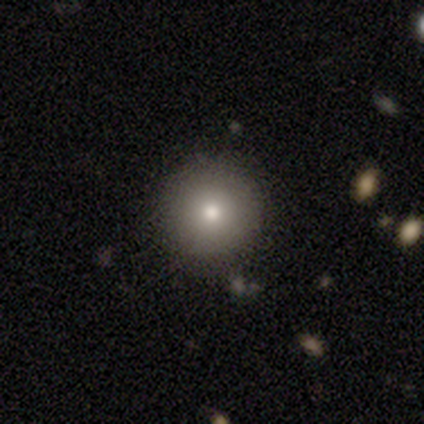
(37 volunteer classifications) Volunteers were most divided on "smooth or featured": smooth: 78%, featured or disk: 16%, star or artifact: 5%. More confident: how rounded — round (100%); merging — none (91%).